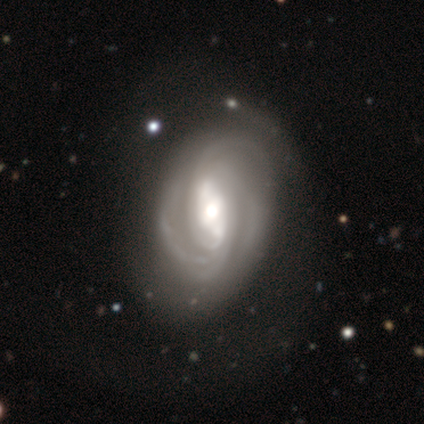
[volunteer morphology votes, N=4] This is clearly a featured or disk galaxy (100%). It is clearly not viewed edge-on (100%). Bar: possibly strong (50%, tied with no). Spiral arm pattern: likely yes (75%). Spiral arm count: likely can't tell (67%). Spiral winding: likely tight (67%). Central bulge: possibly large (50%, tied with moderate). Merging: possibly none (50%, tied with minor disturbance).